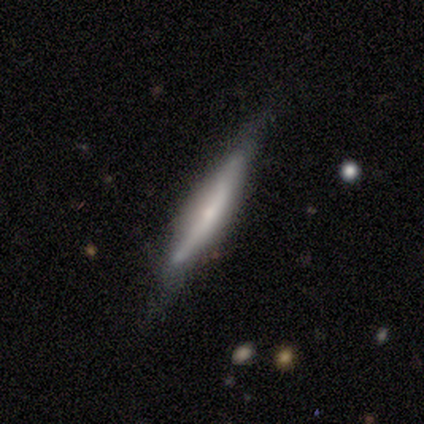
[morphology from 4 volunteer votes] Smooth or featured?
  - smooth: 50% * (tied)
  - featured or disk: 50% * (tied)
  - star or artifact: 0%
How rounded?
  - cigar-shaped: 100% *
  - round: 0%
  - in between: 0%
Merging?
  - none: 50% * (tied)
  - minor disturbance: 50% * (tied)
  - major disturbance: 0%
  - merger: 0%